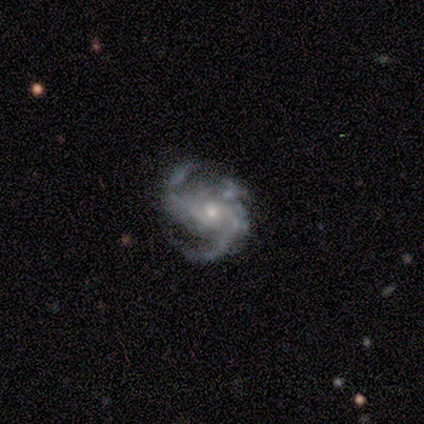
A featured or disk galaxy (100%) with no bar (80%), 2 (80%) medium (40%, tied with loose) spiral arms (100%) and a small central bulge (80%). Merging: none (80%).